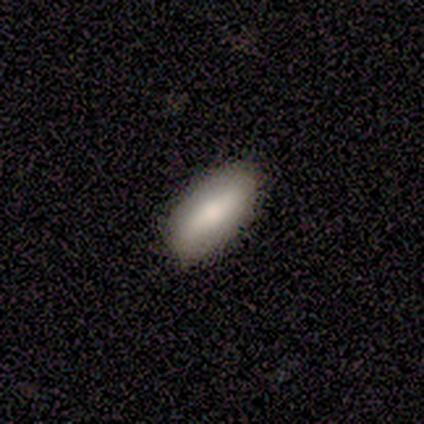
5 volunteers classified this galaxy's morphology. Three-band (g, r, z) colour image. It shows a smooth galaxy with no disk features (60%) that is in between round and cigar-shaped (100%). Merging: none (100%).